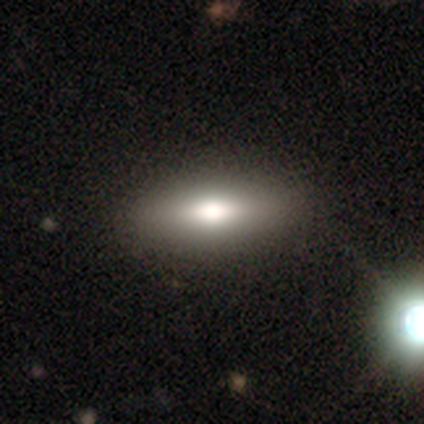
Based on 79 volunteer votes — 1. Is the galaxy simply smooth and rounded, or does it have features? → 71% smooth, 22% featured or disk, 8% star or artifact.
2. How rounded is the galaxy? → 71% in between, 29% cigar-shaped, 0% round.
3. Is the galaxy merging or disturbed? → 47% none, 5% minor disturbance, 3% merger, 0% major disturbance.